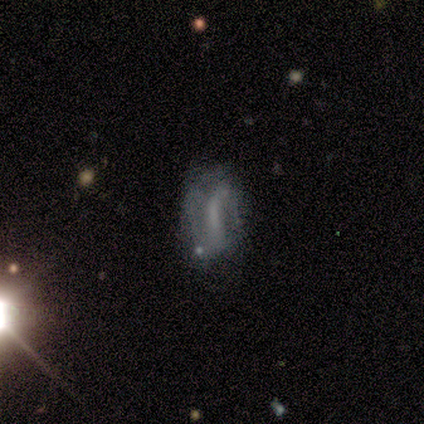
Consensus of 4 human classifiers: Volunteers were most divided on "how rounded" (2-way tie): round: 50%, in between: 50%, cigar-shaped: 0%. More confident: merging — major disturbance (67%); smooth or featured — smooth (50%).